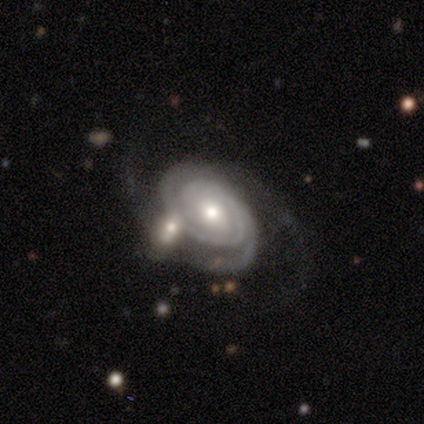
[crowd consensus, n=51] Smooth or featured? featured or disk (96%)
Edge-on disk? no (96%)
Bar? no (57%)
Spiral arms? yes (100%)
Spiral winding? tight (70%)
Spiral arm count? 2 (85%)
Bulge size? moderate (66%)
Merging? none (42%)